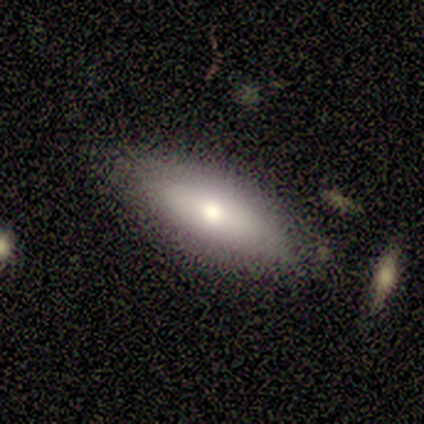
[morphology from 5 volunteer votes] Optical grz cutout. It shows a smooth galaxy with no disk features (60%) that is in between round and cigar-shaped (67%). Merging: none (100%).